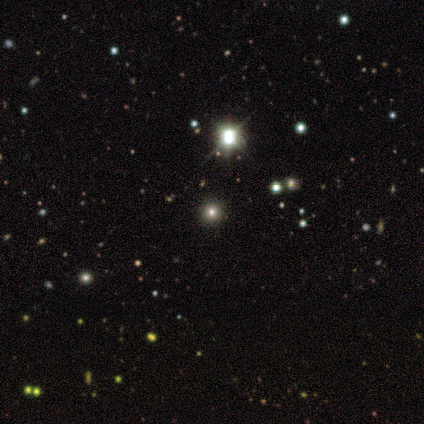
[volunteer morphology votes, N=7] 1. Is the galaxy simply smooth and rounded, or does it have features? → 71% star or artifact, 29% smooth, 0% featured or disk.